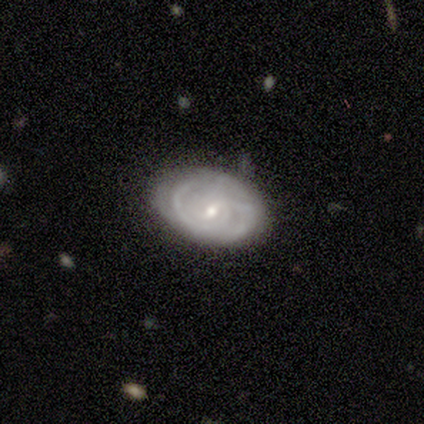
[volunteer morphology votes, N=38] A featured or disk galaxy (79%) with a weak bar (63%), medium (48%) spiral arms (83%) and a small central bulge (67%).

Vote fractions:
- Smooth or featured? featured or disk: 79% / smooth: 13% / star or artifact: 8%
- Edge-on disk? no: 100% / yes: 0%
- Bar? weak: 63% / no: 23% / strong: 13%
- Spiral arms? yes: 83% / no: 17%
- Spiral winding? medium: 48% / tight: 44% / loose: 8%
- Spiral arm count? can't tell: 36% / 2: 28% / 1: 20% / 3: 12% / 4: 4% / more than 4: 0%
- Bulge size? small: 67% / moderate: 30% / large: 3% / dominant: 0% / none: 0%
- Merging? none: 71% / minor disturbance: 17% / major disturbance: 6% / merger: 6%